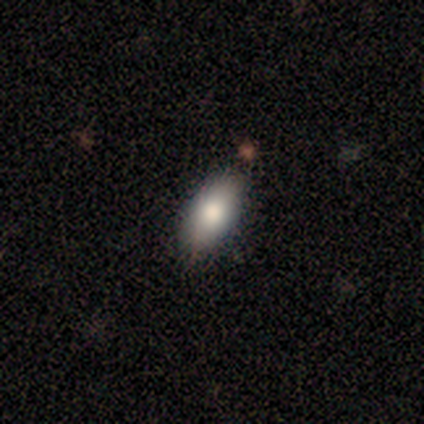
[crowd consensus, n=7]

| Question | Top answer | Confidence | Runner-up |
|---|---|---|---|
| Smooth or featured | smooth | 57% | featured or disk (43%) |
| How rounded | in between | 75% | cigar-shaped (25%) |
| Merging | none | 86% | minor disturbance (14%) |